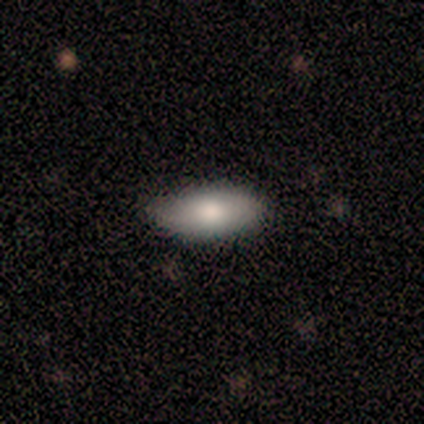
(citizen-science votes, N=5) Smooth or featured: smooth — 60% (featured or disk — 40%)
How rounded: in between — 67% (round — 33%)
Merging: none — 80% (minor disturbance — 20%)